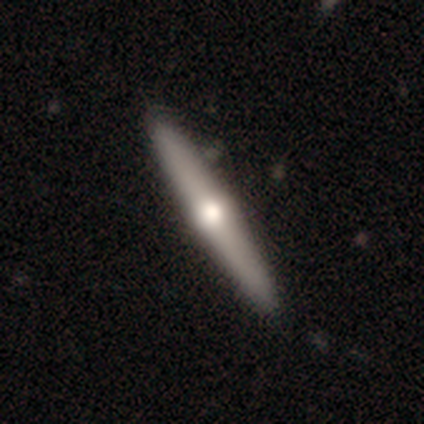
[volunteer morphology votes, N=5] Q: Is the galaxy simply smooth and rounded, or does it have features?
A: featured or disk — 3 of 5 (60%).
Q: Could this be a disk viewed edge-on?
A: yes — 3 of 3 (100%).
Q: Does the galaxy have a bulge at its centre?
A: rounded — 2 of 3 (67%).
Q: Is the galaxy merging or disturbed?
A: none — 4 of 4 (100%).